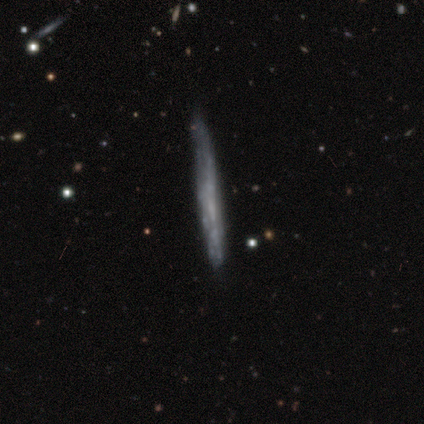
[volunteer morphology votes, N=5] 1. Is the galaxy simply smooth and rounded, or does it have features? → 100% featured or disk, 0% smooth, 0% star or artifact.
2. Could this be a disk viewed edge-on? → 100% yes, 0% no.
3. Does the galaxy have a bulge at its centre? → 100% none, 0% boxy, 0% rounded.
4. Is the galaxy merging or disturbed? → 80% none, 20% minor disturbance, 0% major disturbance, 0% merger.